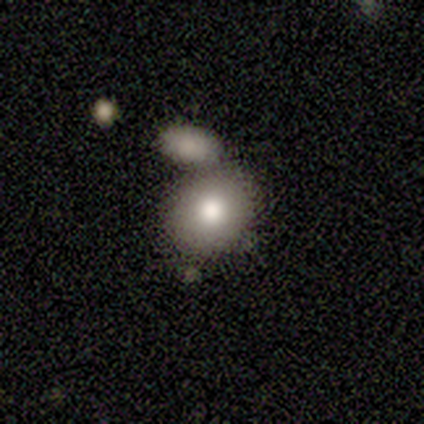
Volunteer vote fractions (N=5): Smooth or featured?
  - smooth: 100% *
  - featured or disk: 0%
  - star or artifact: 0%
How rounded?
  - round: 60% *
  - in between: 40%
  - cigar-shaped: 0%
Merging?
  - none: 60% *
  - minor disturbance: 20%
  - merger: 20%
  - major disturbance: 0%